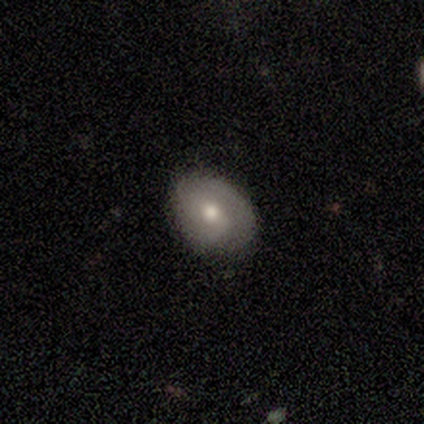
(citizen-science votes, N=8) featured or disk 62%, smooth 38%, star or artifact 0%. Down the decision tree: edge-on disk — no (100%); bar — no (60%); spiral arms — yes (100%); spiral arm count — 2 (60%); spiral winding — medium (60%); bulge size — moderate (60%); merging — none (100%).